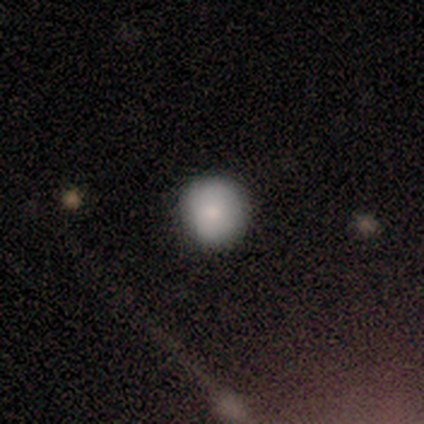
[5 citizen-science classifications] Smooth or featured?
  - smooth: 80% *
  - star or artifact: 20%
  - featured or disk: 0%
How rounded?
  - round: 100% *
  - in between: 0%
  - cigar-shaped: 0%
Merging?
  - none: 100% *
  - minor disturbance: 0%
  - major disturbance: 0%
  - merger: 0%